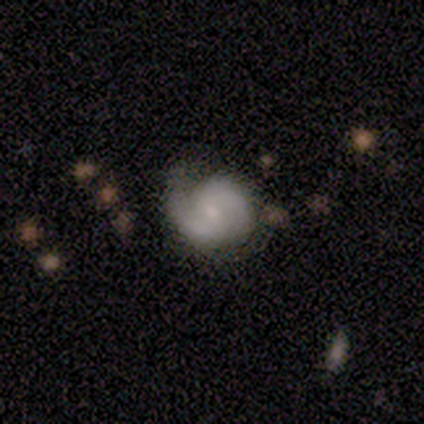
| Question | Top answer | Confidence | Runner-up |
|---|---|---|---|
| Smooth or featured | featured or disk | 79% | smooth (17%) |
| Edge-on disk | no | 97% | yes (3%) |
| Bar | no | 49% | weak (46%) |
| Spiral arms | yes | 89% | no (11%) |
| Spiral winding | tight | 48% | medium (36%) |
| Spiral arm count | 2 | 67% | can't tell (21%) |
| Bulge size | moderate | 51% | small (32%) |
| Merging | none | 52% | minor disturbance (39%) |